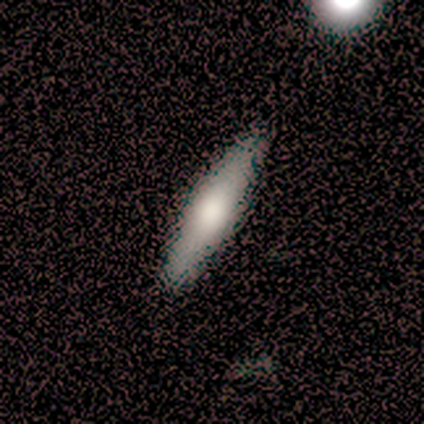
Morphology: type=smooth (57%); roundness=cigar-shaped (87%); merging=none (56%).